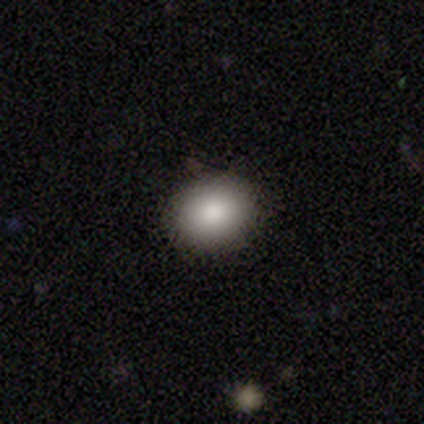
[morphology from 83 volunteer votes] This is clearly a smooth galaxy (87%). How rounded: possibly in between (51%). Merging: clearly none (91%).